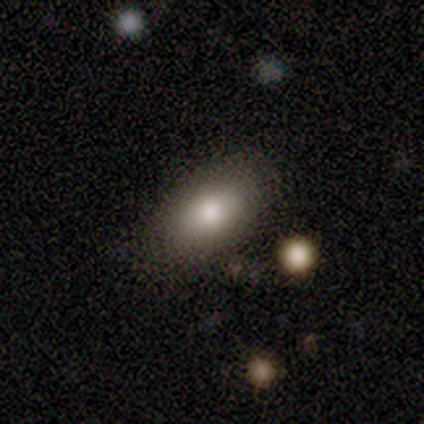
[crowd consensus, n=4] Smooth or featured?
  - smooth: 100% *
  - featured or disk: 0%
  - star or artifact: 0%
How rounded?
  - in between: 100% *
  - round: 0%
  - cigar-shaped: 0%
Merging?
  - none: 100% *
  - minor disturbance: 0%
  - major disturbance: 0%
  - merger: 0%